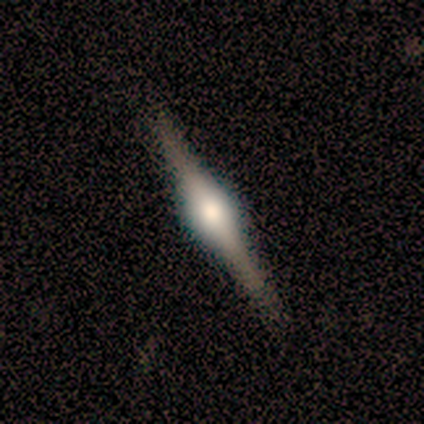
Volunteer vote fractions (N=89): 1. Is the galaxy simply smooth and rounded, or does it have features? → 92% featured or disk, 6% smooth, 2% star or artifact.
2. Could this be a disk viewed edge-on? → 99% yes, 1% no.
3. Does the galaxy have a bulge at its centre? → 91% rounded, 9% boxy, 0% none.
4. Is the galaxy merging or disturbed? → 85% none, 14% minor disturbance, 1% major disturbance, 0% merger.